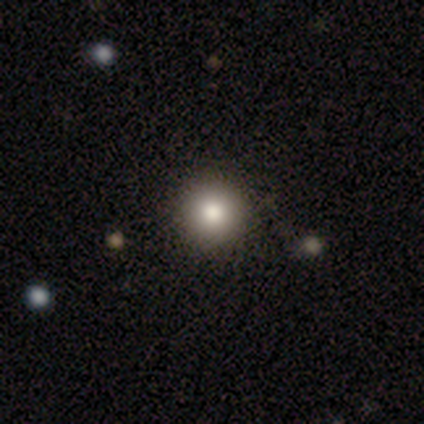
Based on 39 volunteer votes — Q: Smooth or featured?
A: smooth (79%); runner-up: star or artifact (18%)
Q: How rounded?
A: round (100%)
Q: Merging?
A: none (91%); runner-up: minor disturbance (3%)